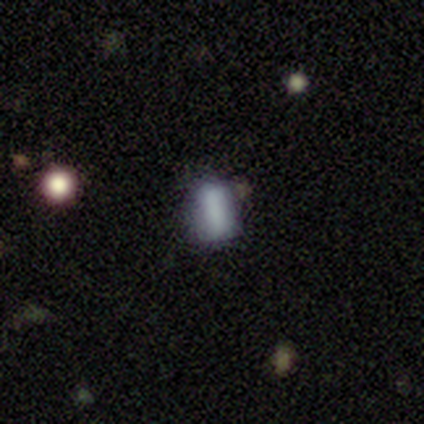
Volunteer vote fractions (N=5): Smooth or featured? 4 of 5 (80%) said smooth. How rounded? 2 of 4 (50%, tied with cigar-shaped) said in between. Merging? 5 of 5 (100%) said none.